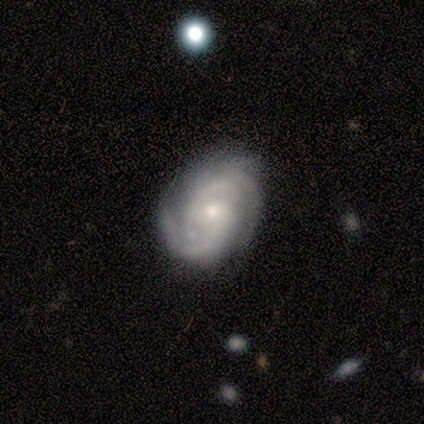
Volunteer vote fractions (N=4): Smooth or featured?
  - featured or disk: 100% *
  - smooth: 0%
  - star or artifact: 0%
Edge-on disk?
  - no: 100% *
  - yes: 0%
Bar?
  - weak: 50% * (tied)
  - no: 50% * (tied)
  - strong: 0%
Spiral arms?
  - yes: 75% *
  - no: 25%
Spiral winding?
  - medium: 67% *
  - tight: 33%
  - loose: 0%
Spiral arm count?
  - 2: 33% * (tied)
  - 4: 33% * (tied)
  - can't tell: 33% * (tied)
  - 1: 0%
  - 3: 0%
  - more than 4: 0%
Bulge size?
  - small: 100% *
  - dominant: 0%
  - large: 0%
  - moderate: 0%
  - none: 0%
Merging?
  - none: 50% * (tied)
  - minor disturbance: 50% * (tied)
  - major disturbance: 0%
  - merger: 0%